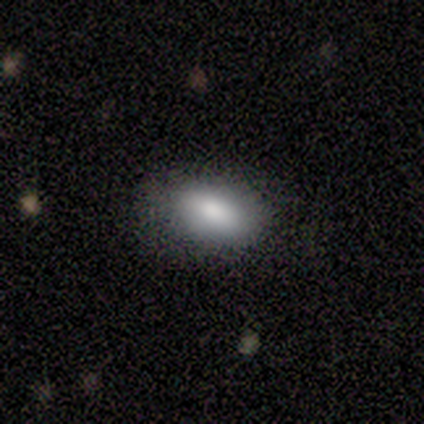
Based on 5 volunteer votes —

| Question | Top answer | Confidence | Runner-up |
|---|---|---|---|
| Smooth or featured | smooth | 100% | — |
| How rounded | in between | 100% | — |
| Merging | none | 80% | minor disturbance (20%) |